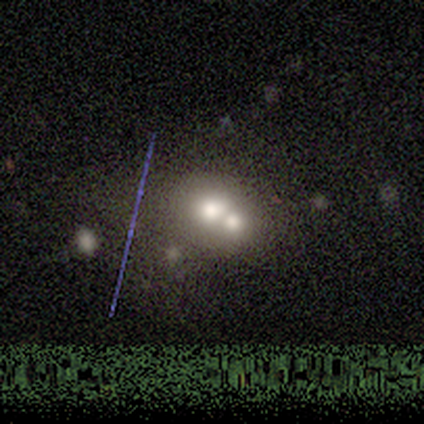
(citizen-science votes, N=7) Smooth or featured? 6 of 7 (86%) said smooth. How rounded? 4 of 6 (67%) said in between. Merging? 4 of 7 (57%) said merger.